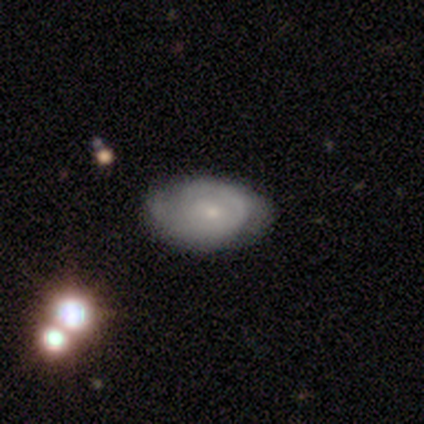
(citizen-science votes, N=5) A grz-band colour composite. It shows a featured or disk galaxy (60%) with no bar (67%), 2 (67%) tight (67%) spiral arms (100%) and a small central bulge (67%). Merging: none (80%).